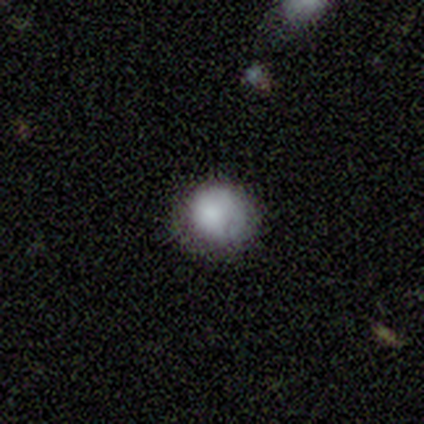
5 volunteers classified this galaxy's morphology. Smooth or featured? 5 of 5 (100%) said smooth. How rounded? 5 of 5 (100%) said round. Merging? 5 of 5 (100%) said none.